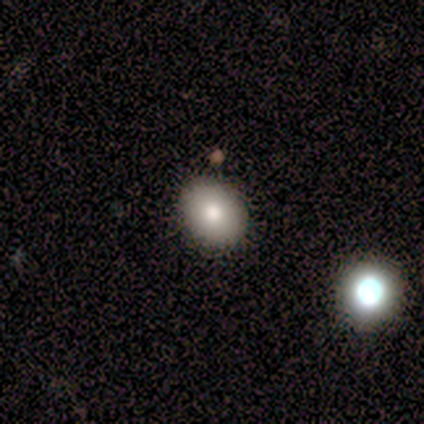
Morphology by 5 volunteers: This is clearly a smooth galaxy (80%). How rounded: clearly in between (100%). Merging: clearly none (100%).